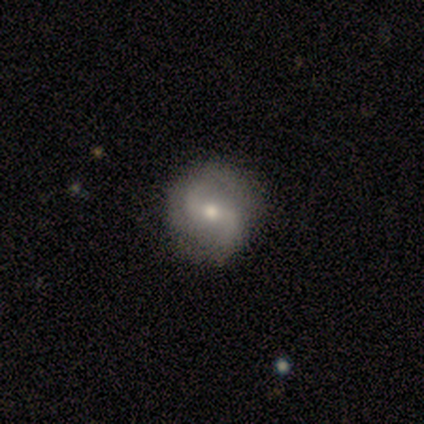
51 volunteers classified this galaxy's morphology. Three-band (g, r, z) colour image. It shows a featured or disk galaxy (84%) with a weak bar (45%), 2 (86%) loose (45%) spiral arms (100%) and a moderate central bulge (74%). Merging: none (86%).